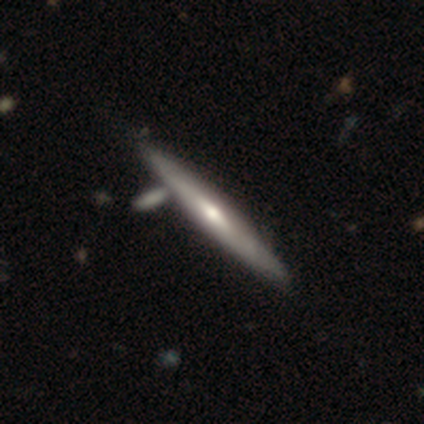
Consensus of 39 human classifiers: A featured or disk galaxy (72%) viewed edge-on (96%) with a rounded central bulge (78%). Merging: none (63%).